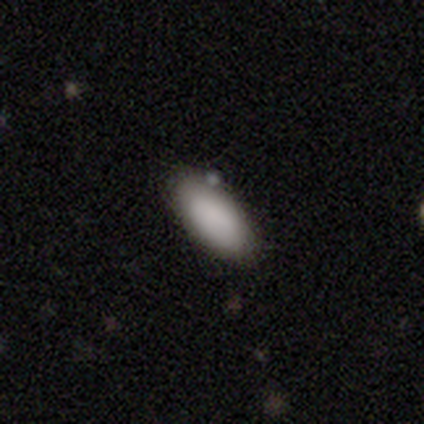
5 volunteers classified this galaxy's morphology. This appears to be a smooth galaxy with no disk features (100%) that is in between round and cigar-shaped (80%). Merging: none (80%).